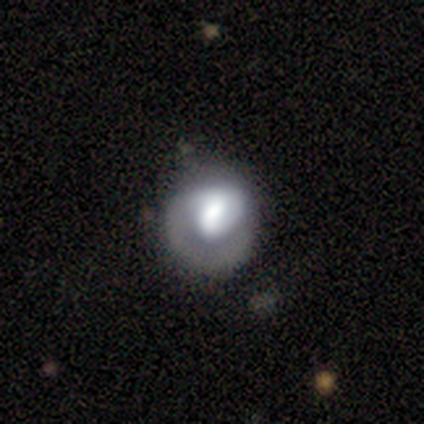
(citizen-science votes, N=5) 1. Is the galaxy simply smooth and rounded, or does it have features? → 40% smooth (tied), 40% featured or disk (tied), 20% star or artifact.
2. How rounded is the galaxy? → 50% round (tied), 50% in between (tied), 0% cigar-shaped.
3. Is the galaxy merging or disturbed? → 50% minor disturbance, 25% none, 25% major disturbance, 0% merger.